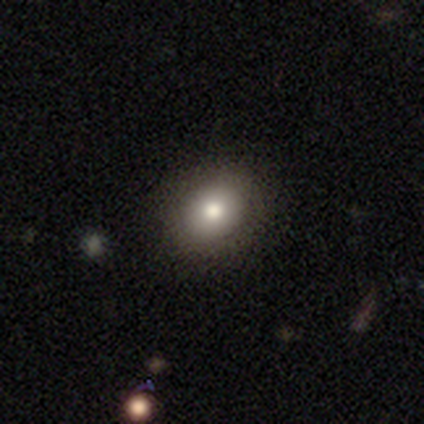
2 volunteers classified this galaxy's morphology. Consensus on every question: smooth or featured — smooth (100%); how rounded — round (100%); merging — none (100%).